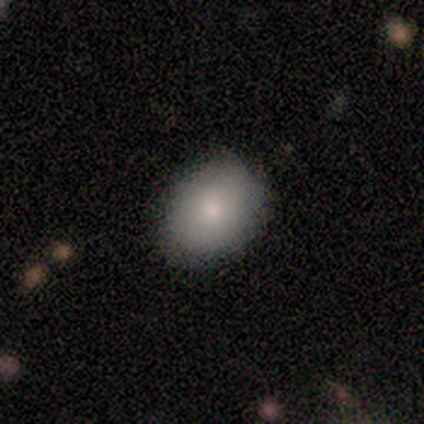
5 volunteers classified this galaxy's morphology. Overall: smooth (80%). How rounded: round (50%, tied with in between). Merging: none (80%).